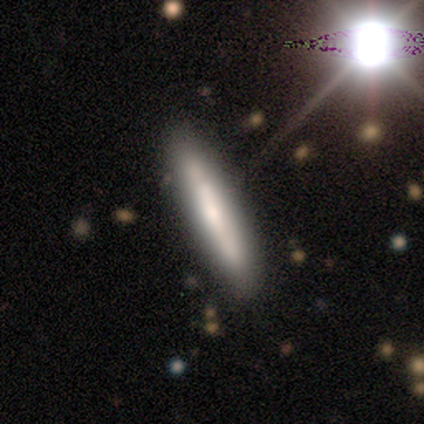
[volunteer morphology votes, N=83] Volunteers were most divided on "smooth or featured": smooth: 57%, featured or disk: 33%, star or artifact: 11%. More confident: how rounded — cigar-shaped (94%); merging — none (78%).